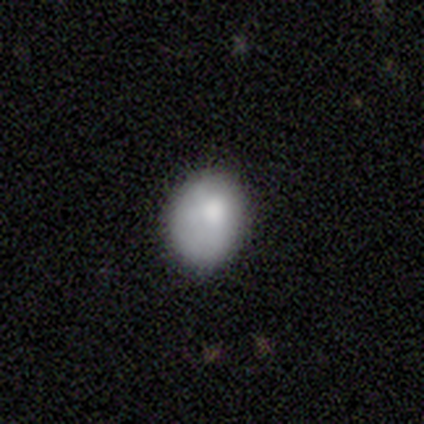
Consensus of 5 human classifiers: Smooth or featured? smooth (80%)
How rounded? in between (75%)
Merging? none (80%)